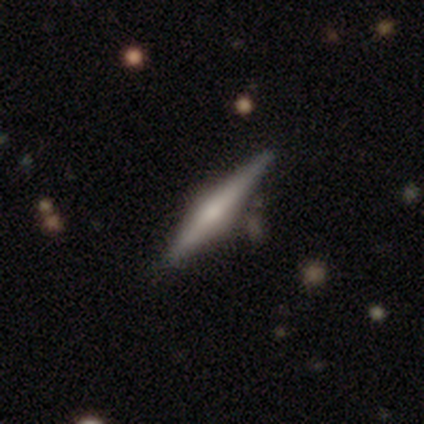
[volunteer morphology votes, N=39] smooth_or_featured: featured or disk (p=0.72) [alt: smooth p=0.18]
disk_edge_on: yes (p=0.93) [alt: no p=0.07]
edge_on_bulge: rounded (p=0.88) [alt: boxy p=0.08]
merging: none (p=0.83) [alt: minor disturbance p=0.09]